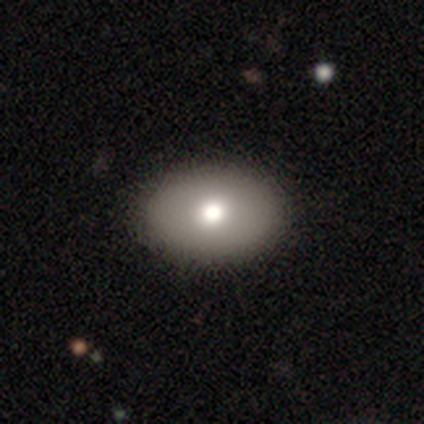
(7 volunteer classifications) This is marginally a smooth galaxy (43%). How rounded: likely in between (67%). Merging: clearly none (80%).